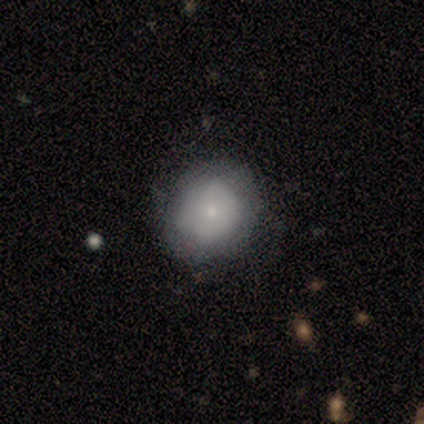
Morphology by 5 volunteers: Overall: smooth (60%; featured or disk 20%). How rounded: round (100%). Merging: none (75%).